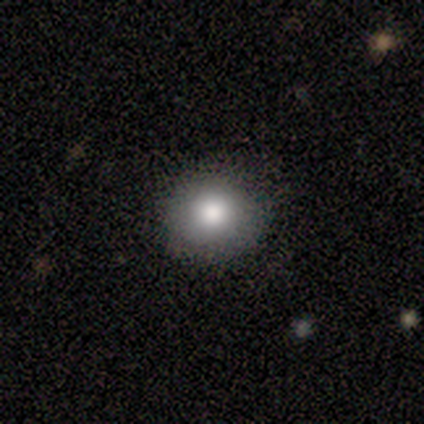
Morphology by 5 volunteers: This appears to be a smooth galaxy with no disk features (100%) that is round (100%). Merging: none (100%).